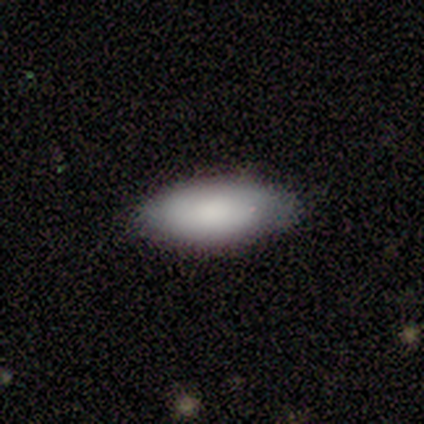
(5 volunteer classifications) This appears to be a smooth galaxy with no disk features (100%) that is in between round and cigar-shaped (100%). Merging: none (80%).